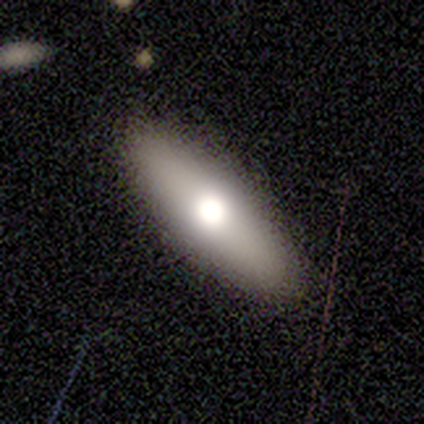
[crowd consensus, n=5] A smooth galaxy with no disk features (80%) that is cigar-shaped (75%).

Vote fractions:
- Smooth or featured? smooth: 80% / featured or disk: 20% / star or artifact: 0%
- How rounded? cigar-shaped: 75% / in between: 25% / round: 0%
- Merging? none: 100% / minor disturbance: 0% / major disturbance: 0% / merger: 0%